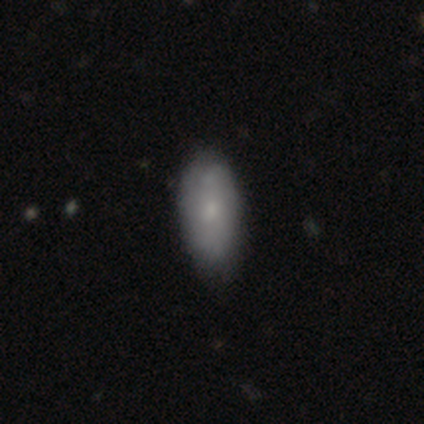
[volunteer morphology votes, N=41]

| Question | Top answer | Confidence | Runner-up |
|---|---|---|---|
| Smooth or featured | smooth | 63% | featured or disk (34%) |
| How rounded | in between | 92% | cigar-shaped (8%) |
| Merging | none | 55% | minor disturbance (15%) |